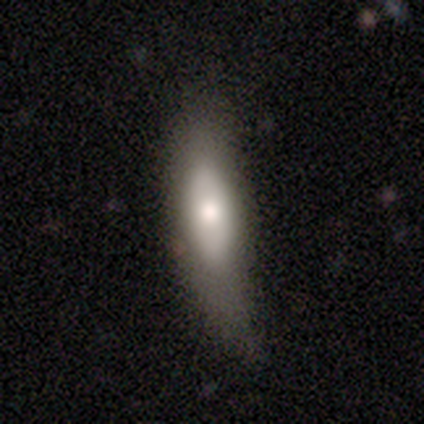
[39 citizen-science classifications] smooth-or-featured: smooth: 62% | featured or disk: 28% | star or artifact: 10%
  how-rounded: cigar-shaped: 71% | in between: 29% | round: 0%
  merging: minor disturbance: 46% | none: 34% | major disturbance: 14% | merger: 6%